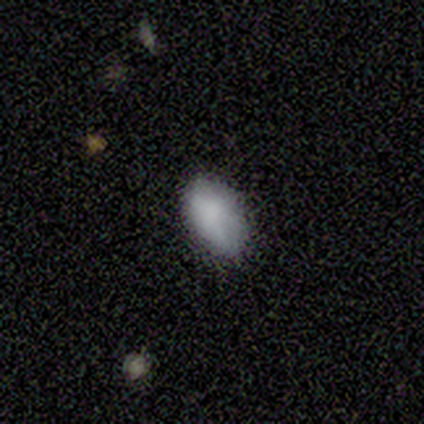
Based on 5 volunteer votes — smooth-or-featured: smooth: 80% | star or artifact: 20% | featured or disk: 0%
  how-rounded: in between: 75% | round: 25% | cigar-shaped: 0%
  merging: none: 75% | minor disturbance: 25% | major disturbance: 0% | merger: 0%